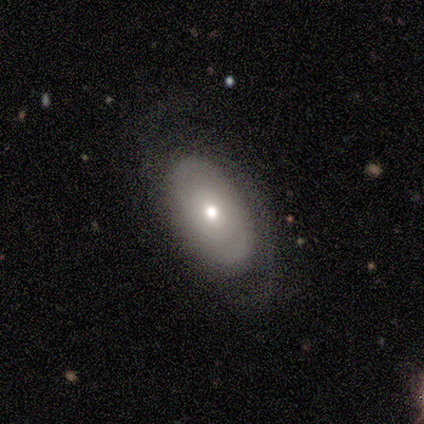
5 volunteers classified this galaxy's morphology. smooth_or_featured: featured or disk (p=0.80) [alt: smooth p=0.20]
disk_edge_on: no (p=1.00)
bar: no (p=1.00)
has_spiral_arms: yes (p=0.75) [alt: no p=0.25]
spiral_winding: tight (p=0.67) [alt: medium p=0.33]
spiral_arm_count: can't tell (p=0.67) [alt: 2 p=0.33]
bulge_size: moderate (p=0.50) [tied with: small p=0.50]
merging: none (p=0.80) [alt: minor disturbance p=0.20]